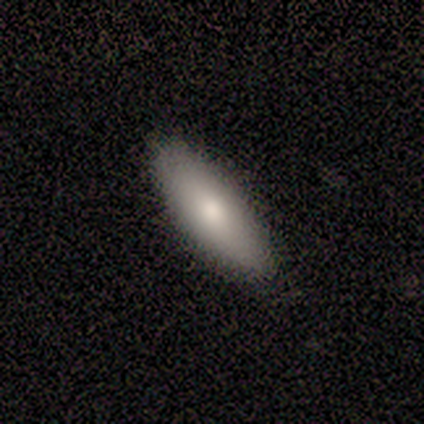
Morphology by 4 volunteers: Smooth or featured? smooth (100%)
How rounded? in between (75%)
Merging? none (100%)